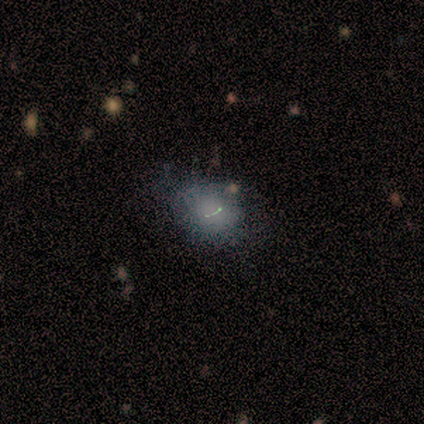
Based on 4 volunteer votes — A smooth galaxy with no disk features (50%, tied with star or artifact) that is round (50%, tied with in between).

Vote fractions:
- Smooth or featured? smooth: 50% (tied) / star or artifact: 50% (tied) / featured or disk: 0%
- How rounded? round: 50% (tied) / in between: 50% (tied) / cigar-shaped: 0%
- Merging? merger: 100% / none: 0% / minor disturbance: 0% / major disturbance: 0%